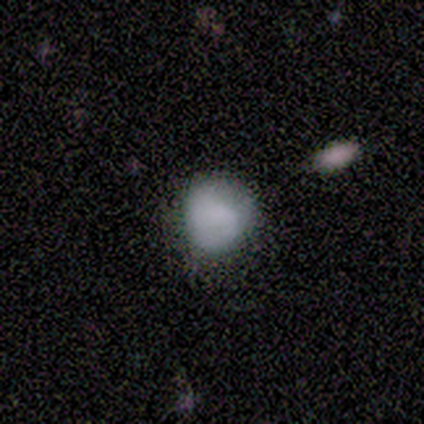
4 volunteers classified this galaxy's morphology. Q: Smooth or featured?
A: featured or disk (50%); runner-up: smooth (25%)
Q: Edge-on disk?
A: no (100%)
Q: Bar?
A: weak (50%); tied with: no (50%)
Q: Spiral arms?
A: no (100%)
Q: Bulge size?
A: moderate (50%); tied with: none (50%)
Q: Merging?
A: major disturbance (67%); runner-up: minor disturbance (33%)